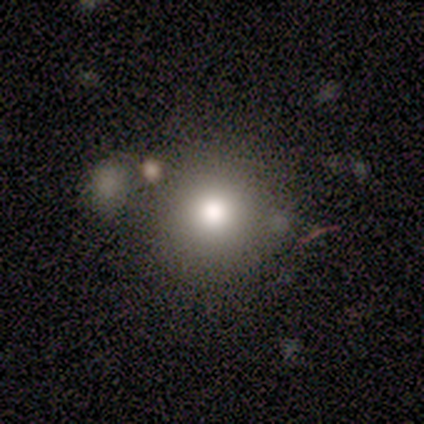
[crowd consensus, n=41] smooth 85%, featured or disk 7%, star or artifact 7%. Down the decision tree: how rounded — round (89%); merging — none (68%).